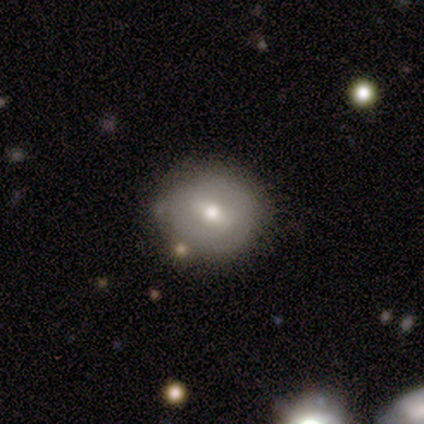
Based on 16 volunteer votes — featured or disk 56%, smooth 38%, star or artifact 6%. Down the decision tree: edge-on disk — no (100%); bar — weak (44%); spiral arms — no (67%); bulge size — moderate (78%); merging — none (93%).